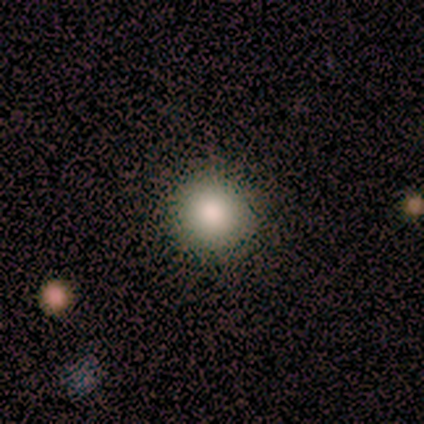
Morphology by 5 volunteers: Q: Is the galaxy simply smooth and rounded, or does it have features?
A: smooth — 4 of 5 (80%).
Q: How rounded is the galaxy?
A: round — 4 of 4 (100%).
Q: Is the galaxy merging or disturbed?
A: none — 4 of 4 (100%).